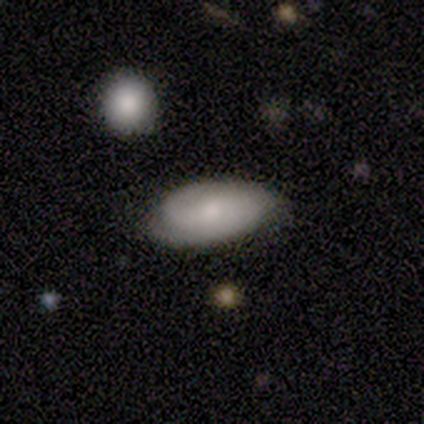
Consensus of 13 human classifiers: Volunteers were most divided on "smooth or featured": featured or disk: 54%, smooth: 38%, star or artifact: 8%. More confident: spiral arm count — 2 (100%); bar — no (80%); spiral arms — yes (80%); spiral winding — tight (75%); edge-on disk — no (71%); bulge size — small (60%); merging — none (58%).